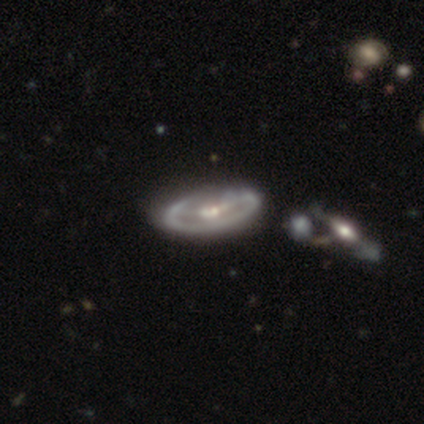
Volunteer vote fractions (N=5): Overall: featured or disk (100%). Edge-on disk: no (100%). Bar: strong (40%, tied with weak). Spiral arms: no (60%; yes 40%). Bulge size: small (60%; moderate 20%). Merging: none (60%; minor disturbance 40%).